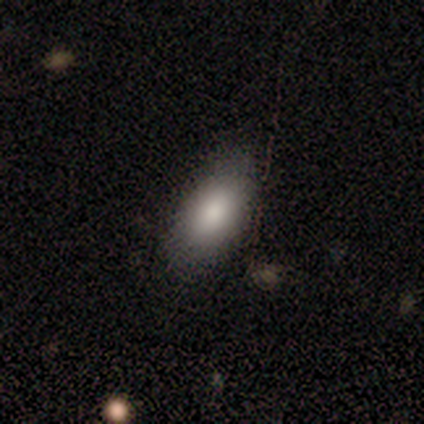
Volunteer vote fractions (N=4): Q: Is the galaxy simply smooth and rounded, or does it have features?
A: smooth — 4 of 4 (100%).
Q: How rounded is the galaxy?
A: in between — 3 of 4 (75%).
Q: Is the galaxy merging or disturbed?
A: none — 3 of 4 (75%).